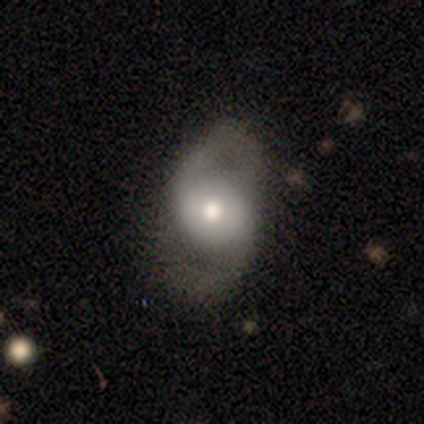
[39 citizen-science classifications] This is likely a featured or disk galaxy (64%). It is clearly not viewed edge-on (100%). Bar: likely no (68%). Spiral arm pattern: clearly yes (84%). Spiral arm count: clearly 2 (95%). Spiral winding: possibly medium (57%). Central bulge: likely moderate (72%). Merging: likely none (64%).